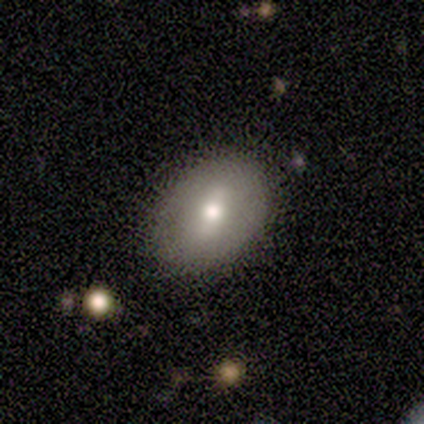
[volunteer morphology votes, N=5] Volunteers were most divided on "smooth or featured": smooth: 80%, featured or disk: 20%, star or artifact: 0%. More confident: how rounded — in between (100%); merging — none (100%).